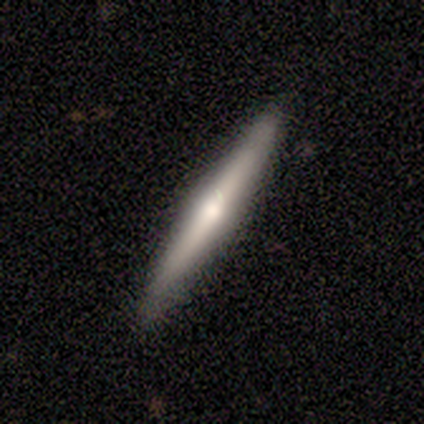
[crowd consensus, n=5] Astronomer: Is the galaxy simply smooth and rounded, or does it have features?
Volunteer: smooth — 80%.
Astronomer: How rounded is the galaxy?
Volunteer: cigar-shaped — 100%.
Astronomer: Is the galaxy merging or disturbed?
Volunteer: none — 100%.